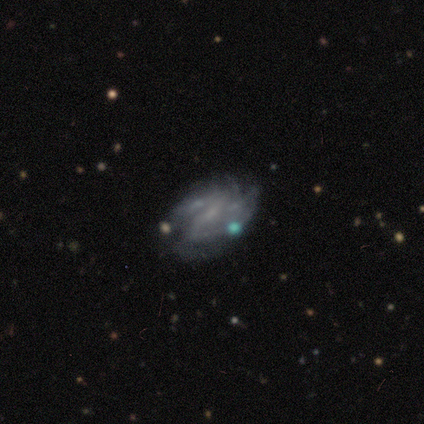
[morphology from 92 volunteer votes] Smooth or featured: featured or disk — 80% (smooth — 12%)
Edge-on disk: no — 96% (yes — 4%)
Bar: weak — 39% (no — 38%)
Spiral arms: yes — 82% (no — 18%)
Spiral winding: tight — 38% (tied with medium — 38%)
Spiral arm count: can't tell — 43% (2 — 29%)
Bulge size: small — 46% (tied with none — 46%)
Merging: none — 48% (minor disturbance — 26%)